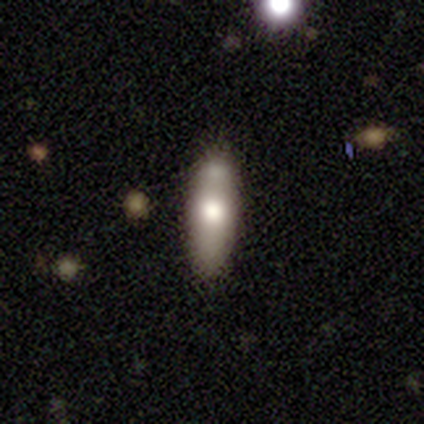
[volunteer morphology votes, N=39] This is clearly a smooth galaxy (82%). How rounded: possibly in between (56%). Merging: likely none (66%).